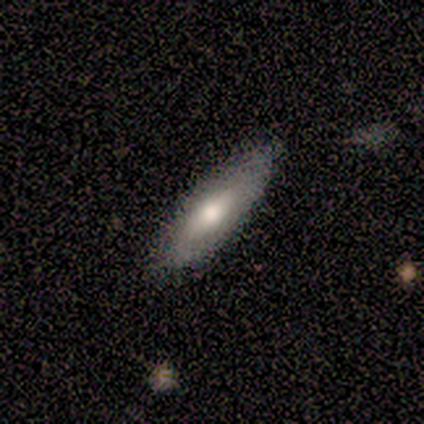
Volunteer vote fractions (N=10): smooth 50%, featured or disk 40%, star or artifact 10%. Down the decision tree: how rounded — in between (60%); merging — none (78%).